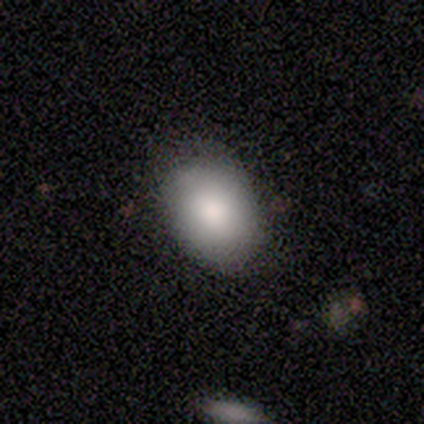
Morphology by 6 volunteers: Volunteers were most divided on "merging": none: 67%, minor disturbance: 33%, major disturbance: 0%, merger: 0%. More confident: smooth or featured — smooth (83%); how rounded — in between (80%).